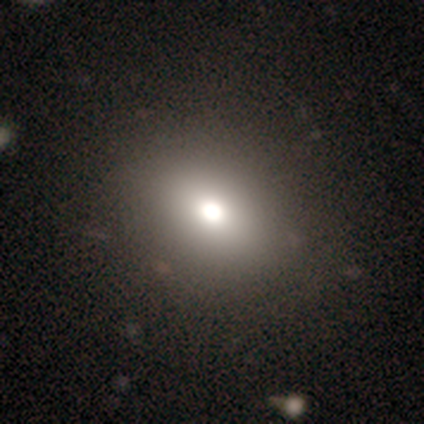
Volunteers were most divided on "how rounded": round: 75%, in between: 25%, cigar-shaped: 0%. More confident: smooth or featured — smooth (80%); merging — none (75%).